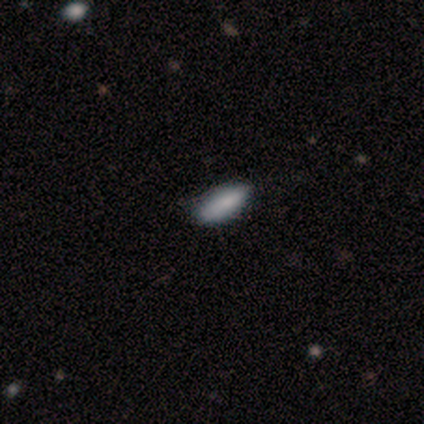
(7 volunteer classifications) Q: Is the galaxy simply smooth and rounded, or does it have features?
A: smooth — 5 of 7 (71%).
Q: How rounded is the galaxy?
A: in between — 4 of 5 (80%).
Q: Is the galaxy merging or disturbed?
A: none — 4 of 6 (67%).